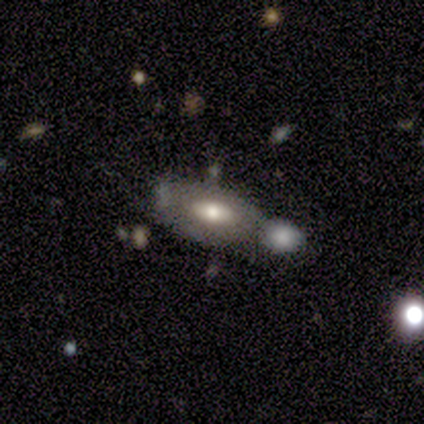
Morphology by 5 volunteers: Smooth or featured? 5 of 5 (100%) said featured or disk. Edge-on disk? 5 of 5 (100%) said no. Bar? 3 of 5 (60%) said no. Spiral arms? 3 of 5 (60%) said yes. Spiral winding? 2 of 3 (67%) said tight. Spiral arm count? 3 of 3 (100%) said can't tell. Bulge size? 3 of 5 (60%) said moderate. Merging? 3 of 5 (60%) said merger.